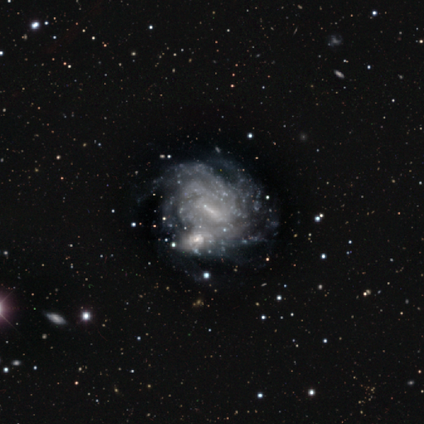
Smooth or featured: featured or disk — 100%
Edge-on disk: no — 100%
Bar: weak — 75% (strong — 25%)
Spiral arms: yes — 100%
Spiral winding: tight — 100%
Spiral arm count: can't tell — 50% (4 — 25%)
Bulge size: small — 50% (tied with none — 50%)
Merging: none — 50% (minor disturbance — 25%)